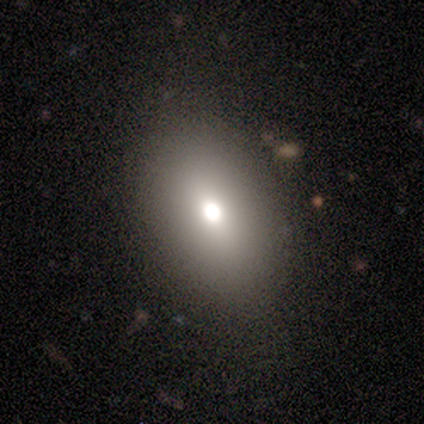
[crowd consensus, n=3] A featured or disk galaxy (67%) viewed edge-on (50%, tied with no) with a rounded central bulge (100%). Merging: none (100%).